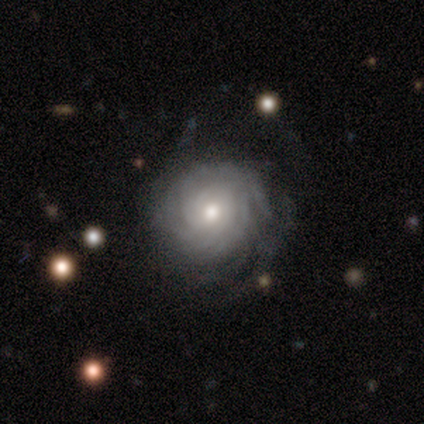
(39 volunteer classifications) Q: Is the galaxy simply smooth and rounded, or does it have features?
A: featured or disk — 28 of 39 (72%).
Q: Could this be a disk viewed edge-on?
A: no — 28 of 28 (100%).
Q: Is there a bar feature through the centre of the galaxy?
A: no — 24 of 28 (86%).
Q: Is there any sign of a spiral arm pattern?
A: yes — 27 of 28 (96%).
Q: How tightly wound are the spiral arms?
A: tight — 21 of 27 (78%).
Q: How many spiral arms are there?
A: can't tell — 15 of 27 (56%).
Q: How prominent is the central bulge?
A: moderate — 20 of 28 (71%).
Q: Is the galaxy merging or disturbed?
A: none — 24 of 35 (69%).